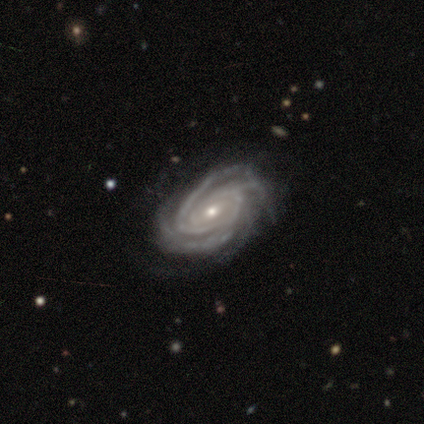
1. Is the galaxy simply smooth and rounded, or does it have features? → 98% featured or disk, 2% star or artifact, 0% smooth.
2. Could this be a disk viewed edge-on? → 96% no, 4% yes.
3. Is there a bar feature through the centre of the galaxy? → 51% weak, 39% no, 11% strong.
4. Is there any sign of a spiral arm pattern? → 100% yes, 0% no.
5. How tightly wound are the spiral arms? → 72% tight, 25% medium, 3% loose.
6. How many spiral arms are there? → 45% 3, 35% 4, 8% 2, 7% can't tell, 5% more than 4, 0% 1.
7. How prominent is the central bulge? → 61% small, 37% moderate, 1% large, 0% dominant, 0% none.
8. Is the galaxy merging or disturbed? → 37% none, 8% minor disturbance, 5% major disturbance, 0% merger.